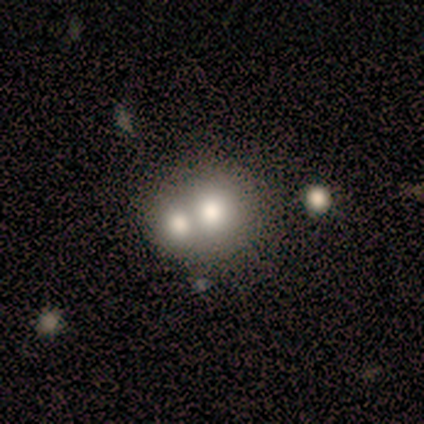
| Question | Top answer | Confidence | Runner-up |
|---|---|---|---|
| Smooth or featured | smooth | 80% | star or artifact (20%) |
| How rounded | round | 75% | in between (25%) |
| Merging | merger | 75% | none (25%) |